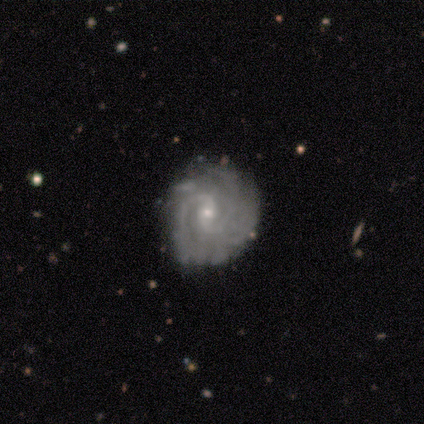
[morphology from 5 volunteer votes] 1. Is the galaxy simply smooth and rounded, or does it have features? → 80% featured or disk, 20% star or artifact, 0% smooth.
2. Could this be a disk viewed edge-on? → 100% no, 0% yes.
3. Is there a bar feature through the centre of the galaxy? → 50% weak (tied), 50% no (tied), 0% strong.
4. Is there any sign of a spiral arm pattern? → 100% yes, 0% no.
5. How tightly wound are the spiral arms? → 75% medium, 25% tight, 0% loose.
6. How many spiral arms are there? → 75% 2, 25% can't tell, 0% 1, 0% 3, 0% 4, 0% more than 4.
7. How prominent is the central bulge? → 75% small, 25% moderate, 0% dominant, 0% large, 0% none.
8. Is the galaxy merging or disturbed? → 75% none, 25% major disturbance, 0% minor disturbance, 0% merger.